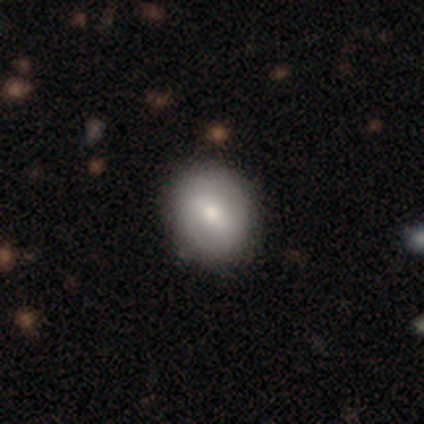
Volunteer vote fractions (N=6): Volunteers were most divided on "smooth or featured": smooth: 50%, featured or disk: 33%, star or artifact: 17%. More confident: merging — none (100%); how rounded — round (67%).